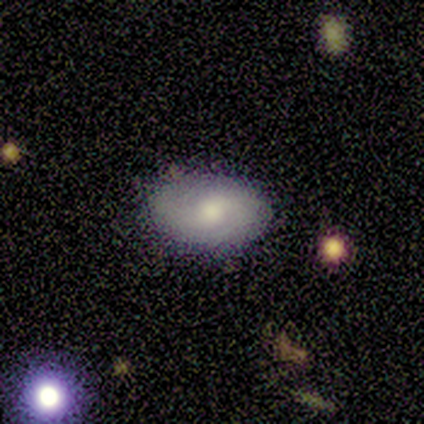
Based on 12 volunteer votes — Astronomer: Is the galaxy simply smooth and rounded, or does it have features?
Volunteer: featured or disk — 50% (runner-up: smooth, 42%).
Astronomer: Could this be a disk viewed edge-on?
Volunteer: no — 100%.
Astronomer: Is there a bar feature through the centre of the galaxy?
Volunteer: weak — 50% (runner-up: no, 33%).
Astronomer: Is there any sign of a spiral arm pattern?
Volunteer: yes — 67%.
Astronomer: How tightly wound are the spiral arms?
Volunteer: medium — 75%.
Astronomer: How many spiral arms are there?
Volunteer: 2 — 75%.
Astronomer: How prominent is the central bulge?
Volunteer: moderate — 83%.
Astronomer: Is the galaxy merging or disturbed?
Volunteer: none — 91%.